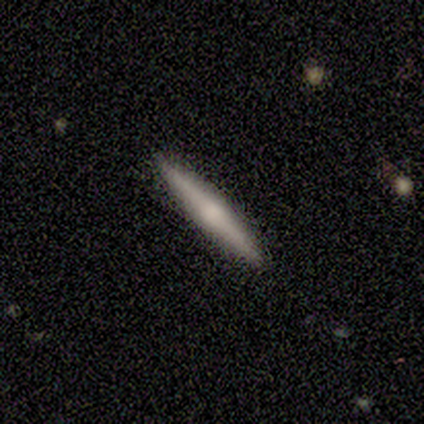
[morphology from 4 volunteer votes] Smooth or featured?
  - featured or disk: 75% *
  - star or artifact: 25%
  - smooth: 0%
Edge-on disk?
  - yes: 100% *
  - no: 0%
Edge-on bulge?
  - rounded: 67% *
  - none: 33%
  - boxy: 0%
Merging?
  - none: 100% *
  - minor disturbance: 0%
  - major disturbance: 0%
  - merger: 0%